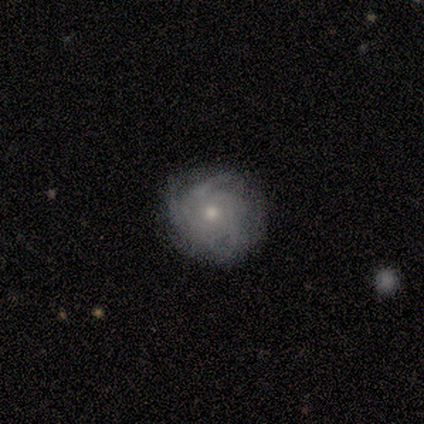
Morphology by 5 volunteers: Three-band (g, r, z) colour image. It shows a featured or disk galaxy (80%) with no bar (100%), 3 (75%) tight (50%, tied with loose) spiral arms (100%) and a small central bulge (50%). Merging: none (75%).